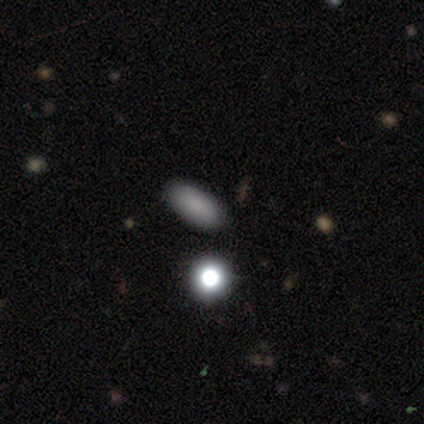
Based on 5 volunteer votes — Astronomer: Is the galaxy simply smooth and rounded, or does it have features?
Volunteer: smooth — 100%.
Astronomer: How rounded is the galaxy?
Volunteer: in between — 80%.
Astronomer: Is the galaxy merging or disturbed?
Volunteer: none — 100%.